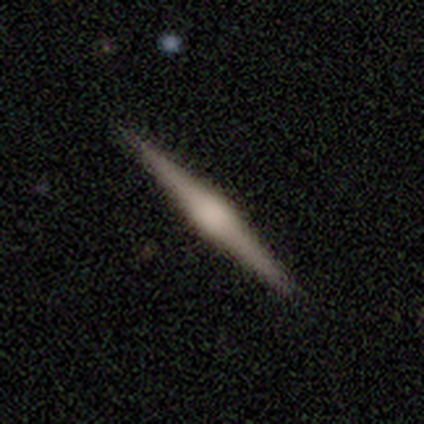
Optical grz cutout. It shows a featured or disk galaxy (100%) viewed edge-on (100%) with a rounded central bulge (80%). Merging: none (100%).